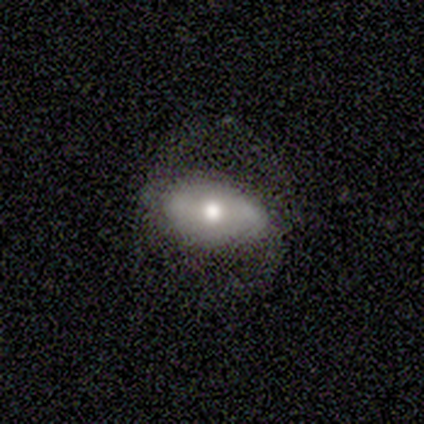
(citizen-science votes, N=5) A smooth galaxy with no disk features (60%) that is in between round and cigar-shaped (100%). Merging: none (80%).